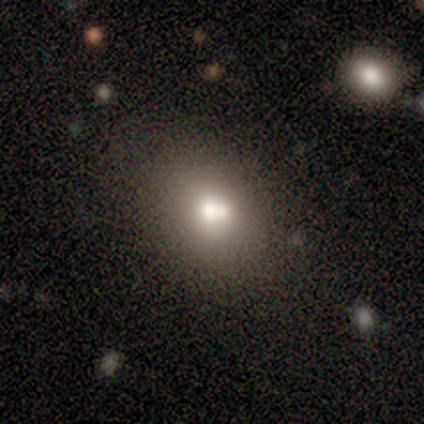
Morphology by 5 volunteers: Smooth or featured: smooth — 80% (featured or disk — 20%)
How rounded: round — 75% (in between — 25%)
Merging: merger — 40% (none — 20%)